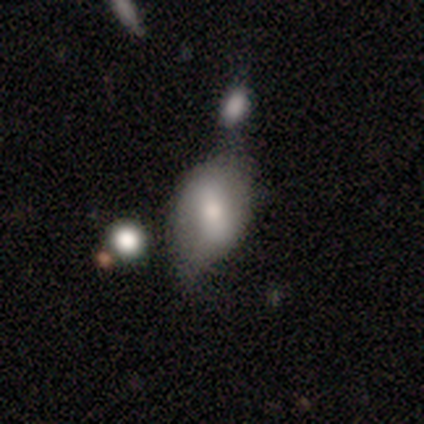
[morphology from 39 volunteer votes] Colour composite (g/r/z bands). It shows a smooth galaxy with no disk features (59%) that is in between round and cigar-shaped (83%). Merging: minor disturbance (40%).